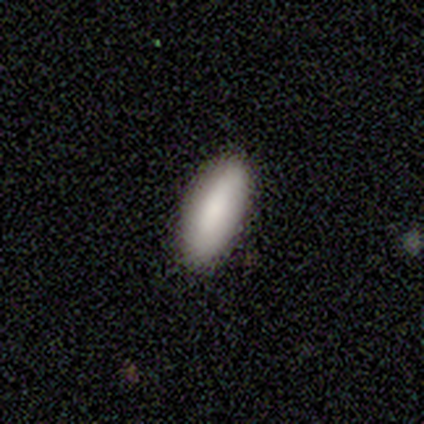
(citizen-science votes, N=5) smooth_or_featured: smooth (p=0.80) [alt: featured or disk p=0.20]
how_rounded: in between (p=1.00)
merging: none (p=1.00)